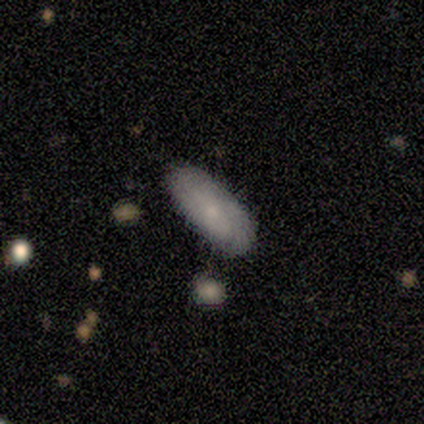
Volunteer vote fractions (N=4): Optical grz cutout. It shows a smooth galaxy with no disk features (50%) that is in between round and cigar-shaped (50%, tied with cigar-shaped). Merging: minor disturbance (100%).